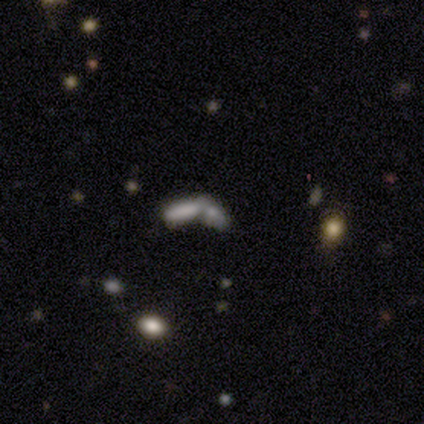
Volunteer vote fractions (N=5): This is clearly a smooth galaxy (80%). How rounded: likely in between (75%). Merging: clearly merger (100%).